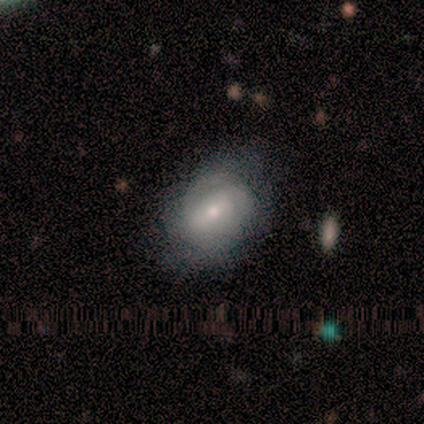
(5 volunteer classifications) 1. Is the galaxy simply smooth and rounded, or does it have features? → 60% featured or disk, 40% smooth, 0% star or artifact.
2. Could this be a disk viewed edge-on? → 100% no, 0% yes.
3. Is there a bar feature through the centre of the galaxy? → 67% strong, 33% weak, 0% no.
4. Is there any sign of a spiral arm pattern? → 67% yes, 33% no.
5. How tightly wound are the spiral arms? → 50% tight (tied), 50% medium (tied), 0% loose.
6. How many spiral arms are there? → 50% 2 (tied), 50% can't tell (tied), 0% 1, 0% 3, 0% 4, 0% more than 4.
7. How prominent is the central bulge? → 67% moderate, 33% small, 0% dominant, 0% large, 0% none.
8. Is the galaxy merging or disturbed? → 60% none, 40% minor disturbance, 0% major disturbance, 0% merger.